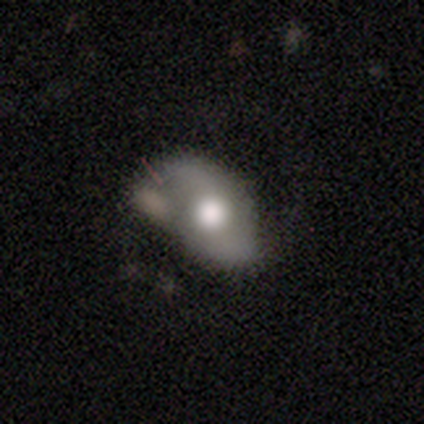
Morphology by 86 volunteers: smooth_or_featured: featured or disk (p=0.60) [alt: smooth p=0.38]
disk_edge_on: no (p=0.98) [alt: yes p=0.02]
bar: no (p=0.76) [alt: weak p=0.20]
has_spiral_arms: yes (p=0.71) [alt: no p=0.29]
spiral_winding: loose (p=0.58) [alt: medium p=0.39]
spiral_arm_count: 2 (p=1.00)
bulge_size: large (p=0.51) [alt: moderate p=0.43]
merging: none (p=0.39) [alt: minor disturbance p=0.32]